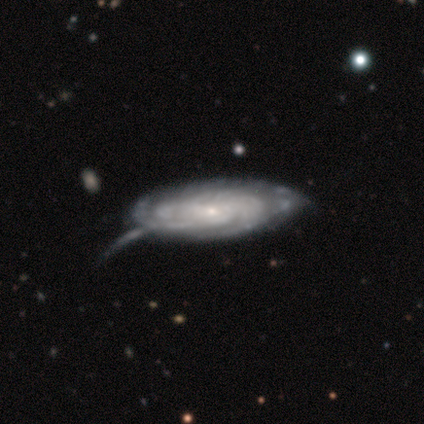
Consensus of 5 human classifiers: Volunteers were most divided on "bar" (2-way tie): weak: 50%, no: 50%, strong: 0%; "spiral arm count" (2-way tie): 3: 50%, 4: 50%, 1: 0%, 2: 0%, more than 4: 0%, can't tell: 0%; "merging" (2-way tie): minor disturbance: 40%, major disturbance: 40%, none: 20%, merger: 0%. More confident: spiral arms — yes (100%); spiral winding — tight (100%); bulge size — small (100%); edge-on disk — no (67%); smooth or featured — featured or disk (60%).